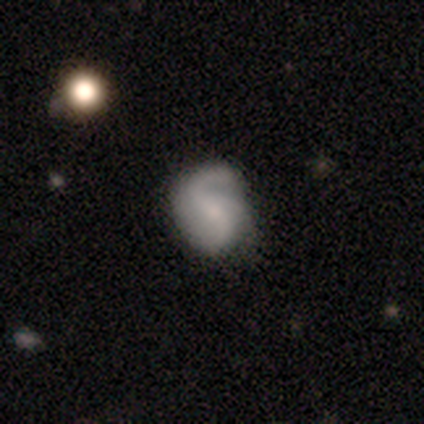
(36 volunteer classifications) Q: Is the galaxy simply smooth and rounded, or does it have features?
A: featured or disk — 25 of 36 (69%).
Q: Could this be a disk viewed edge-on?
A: no — 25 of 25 (100%).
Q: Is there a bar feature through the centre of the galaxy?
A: weak — 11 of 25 (44%).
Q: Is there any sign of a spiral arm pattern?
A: yes — 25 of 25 (100%).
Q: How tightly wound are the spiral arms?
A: medium — 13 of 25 (52%).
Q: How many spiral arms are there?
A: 2 — 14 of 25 (56%).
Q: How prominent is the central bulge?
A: small — 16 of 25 (64%).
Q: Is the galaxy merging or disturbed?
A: none — 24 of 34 (71%).